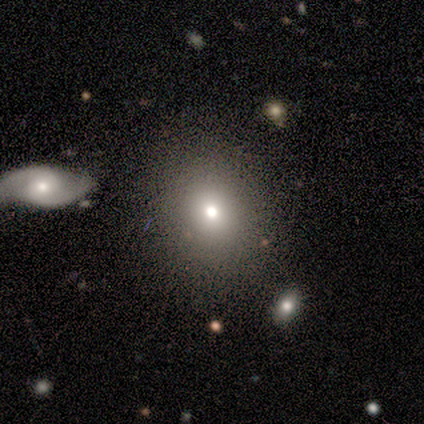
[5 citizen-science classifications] Smooth or featured? smooth (80%)
How rounded? round (75%)
Merging? none (75%)